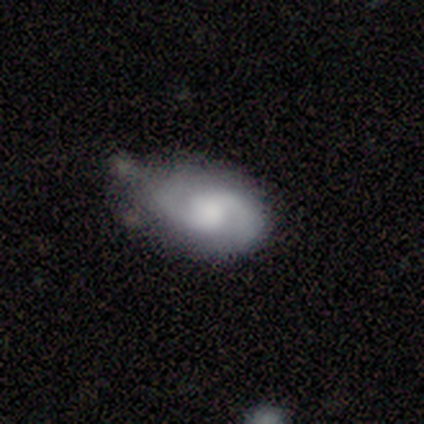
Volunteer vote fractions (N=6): Smooth or featured: featured or disk — 100%
Edge-on disk: no — 100%
Bar: no — 83% (weak — 17%)
Spiral arms: yes — 100%
Spiral winding: medium — 83% (loose — 17%)
Spiral arm count: 2 — 100%
Bulge size: moderate — 50% (small — 33%)
Merging: none — 50% (tied with minor disturbance — 50%)